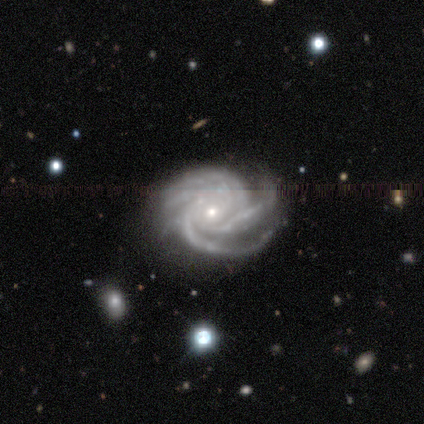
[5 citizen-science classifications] Smooth or featured?
  - featured or disk: 80% *
  - smooth: 20%
  - star or artifact: 0%
Edge-on disk?
  - no: 100% *
  - yes: 0%
Bar?
  - no: 100% *
  - strong: 0%
  - weak: 0%
Spiral arms?
  - yes: 100% *
  - no: 0%
Spiral winding?
  - tight: 75% *
  - medium: 25%
  - loose: 0%
Spiral arm count?
  - 4: 100% *
  - 1: 0%
  - 2: 0%
  - 3: 0%
  - more than 4: 0%
  - can't tell: 0%
Bulge size?
  - small: 100% *
  - dominant: 0%
  - large: 0%
  - moderate: 0%
  - none: 0%
Merging?
  - none: 80% *
  - merger: 20%
  - minor disturbance: 0%
  - major disturbance: 0%